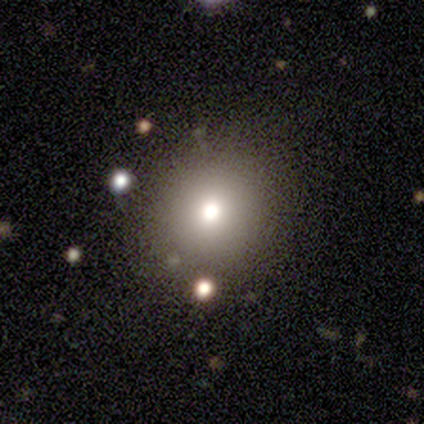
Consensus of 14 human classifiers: smooth-or-featured: smooth: 71% | star or artifact: 21% | featured or disk: 7%
  how-rounded: round: 70% | in between: 30% | cigar-shaped: 0%
  merging: none: 82% | minor disturbance: 18% | major disturbance: 0% | merger: 0%